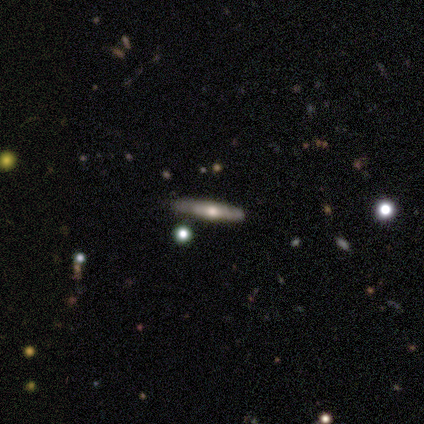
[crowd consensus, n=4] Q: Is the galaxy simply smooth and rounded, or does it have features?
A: smooth — 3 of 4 (75%).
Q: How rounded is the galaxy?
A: cigar-shaped — 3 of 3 (100%).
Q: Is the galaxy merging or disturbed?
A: none — 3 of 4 (75%).